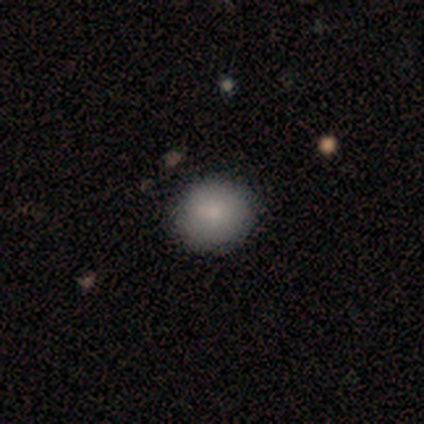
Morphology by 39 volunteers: Smooth or featured? smooth (85%)
How rounded? round (85%)
Merging? none (42%)